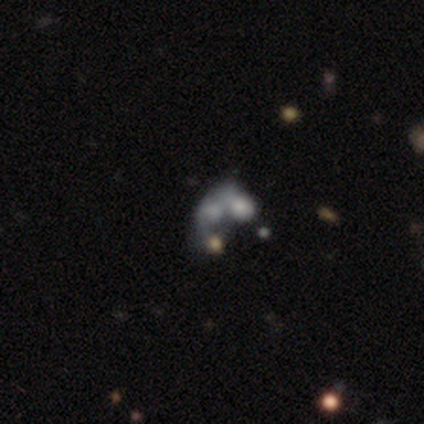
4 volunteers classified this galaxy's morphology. This is likely a smooth galaxy (75%). How rounded: clearly in between (100%). Merging: possibly major disturbance (50%, tied with merger).